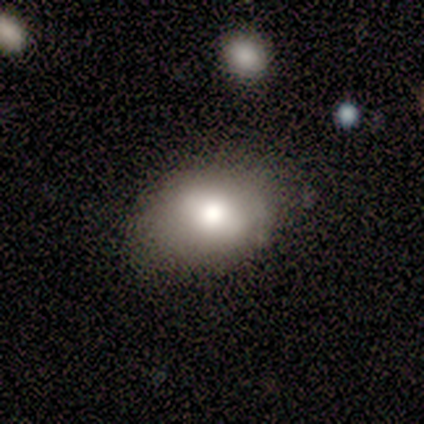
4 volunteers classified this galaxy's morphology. This appears to be a smooth galaxy with no disk features (100%) that is in between round and cigar-shaped (100%). Merging: none (100%).